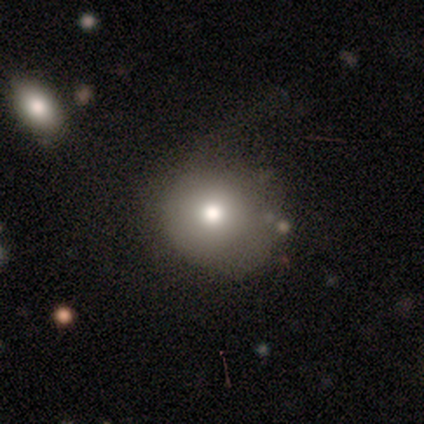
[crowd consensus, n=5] smooth 40% (tied), featured or disk 40% (tied), star or artifact 20%. Down the decision tree: how rounded — round (100%); merging — none (75%).